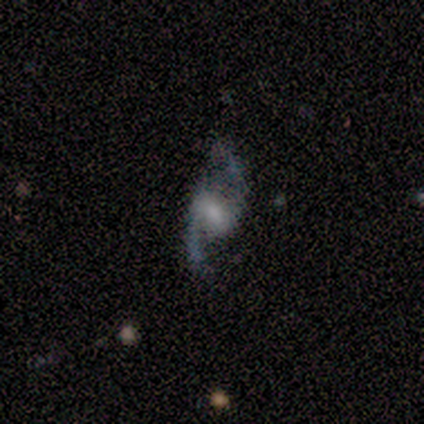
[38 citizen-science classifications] Volunteers were most divided on "bulge size": small: 38%, moderate: 34%, none: 16%, large: 12%, dominant: 0%. More confident: spiral arm count — 2 (100%); spiral arms — yes (97%); smooth or featured — featured or disk (92%); edge-on disk — no (91%); merging — none (76%); bar — weak (66%); spiral winding — loose (61%).